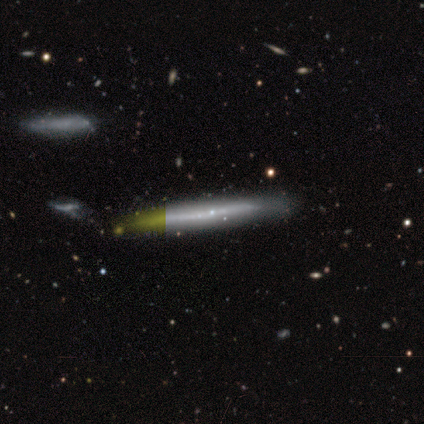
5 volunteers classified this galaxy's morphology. Overall: smooth (60%; featured or disk 20%). How rounded: cigar-shaped (100%). Merging: none (100%).